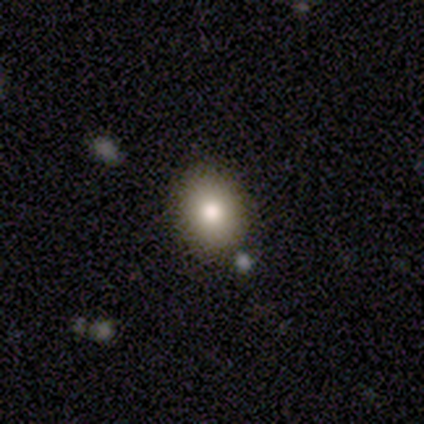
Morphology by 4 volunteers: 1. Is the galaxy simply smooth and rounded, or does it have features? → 100% smooth, 0% featured or disk, 0% star or artifact.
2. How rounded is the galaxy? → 75% in between, 25% round, 0% cigar-shaped.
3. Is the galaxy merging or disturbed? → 50% none, 25% minor disturbance, 25% merger, 0% major disturbance.